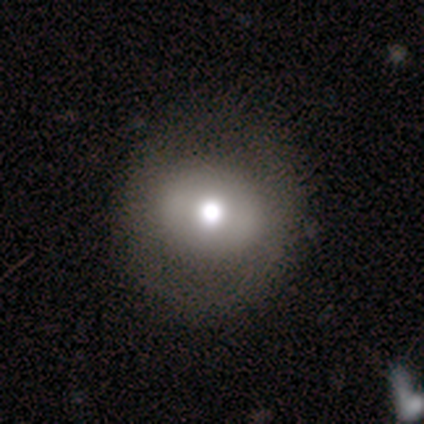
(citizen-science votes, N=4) Smooth or featured: smooth — 50% (tied with featured or disk — 50%)
How rounded: round — 50% (tied with in between — 50%)
Merging: none — 100%